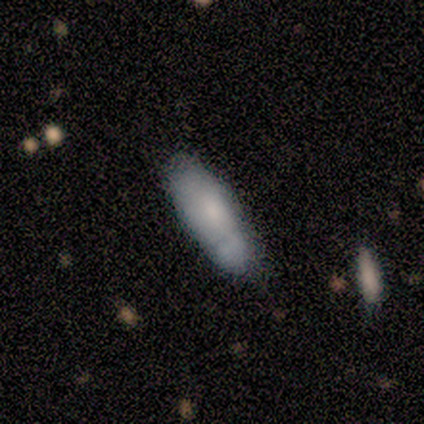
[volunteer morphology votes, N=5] Volunteers were most divided on "merging" (2-way tie): none: 40%, minor disturbance: 40%, major disturbance: 20%, merger: 0%. More confident: smooth or featured — smooth (80%); how rounded — cigar-shaped (75%).